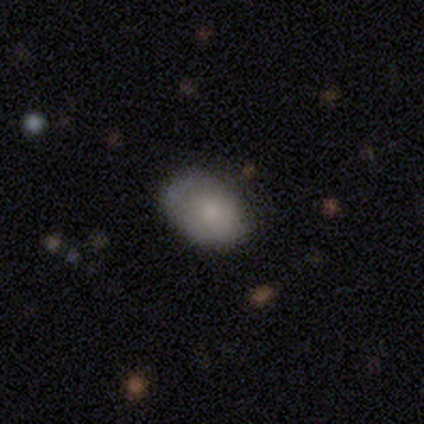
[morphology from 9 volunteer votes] A smooth galaxy with no disk features (67%) that is in between round and cigar-shaped (83%). Merging: none (86%).